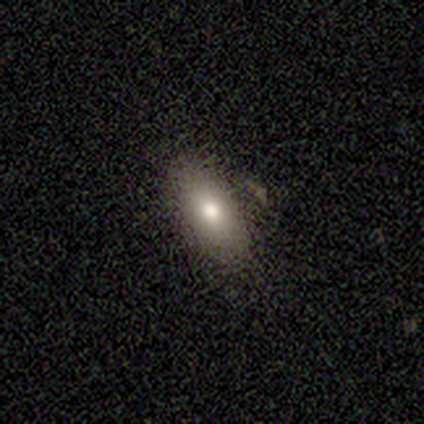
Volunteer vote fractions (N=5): Smooth or featured? smooth (60%)
How rounded? in between (67%)
Merging? none (100%)